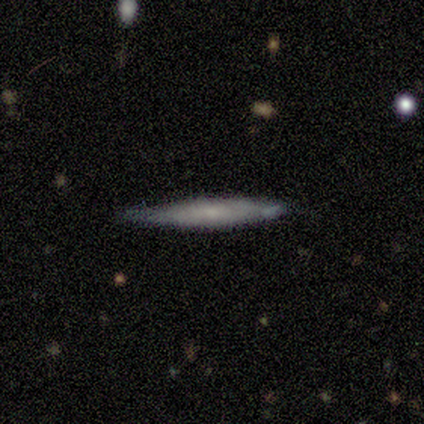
Q: Smooth or featured?
A: smooth (58%); runner-up: featured or disk (42%)
Q: How rounded?
A: cigar-shaped (86%); runner-up: round (14%)
Q: Merging?
A: none (83%); runner-up: minor disturbance (8%)